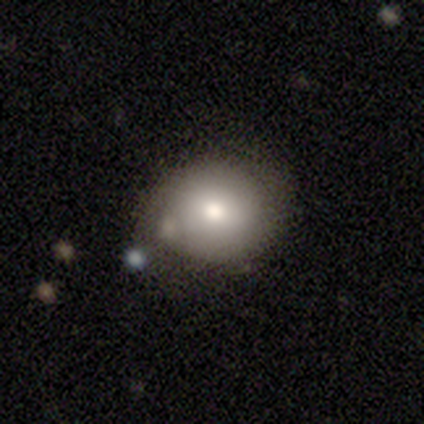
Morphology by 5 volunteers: Smooth or featured: smooth — 40% (tied with featured or disk — 40%)
How rounded: round — 50% (tied with in between — 50%)
Merging: none — 75% (major disturbance — 25%)